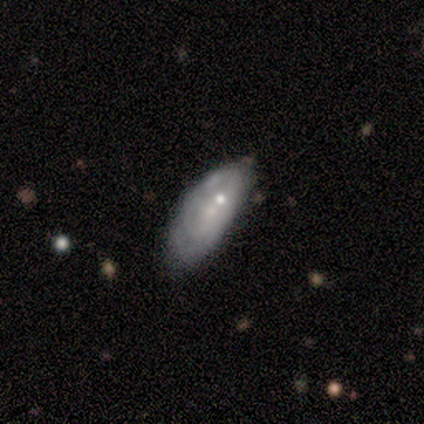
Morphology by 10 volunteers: A featured or disk galaxy (50%) with no bar (100%), tight (50%, tied with loose) spiral arms (50%, tied with no) and a small central bulge (75%). Merging: none (89%).